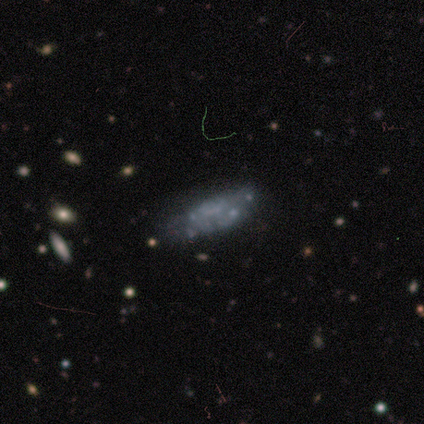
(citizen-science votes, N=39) Volunteers were most divided on "merging": none: 55%, minor disturbance: 27%, merger: 12%, major disturbance: 6%. More confident: bulge size — none (92%); edge-on disk — no (89%); spiral arms — no (88%); bar — no (79%); smooth or featured — featured or disk (69%).